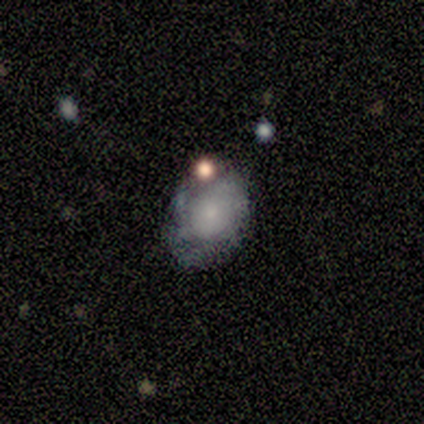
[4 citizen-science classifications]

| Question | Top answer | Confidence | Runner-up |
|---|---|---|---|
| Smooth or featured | smooth | 50% | tied: featured or disk (50%) |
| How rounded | round | 50% | tied: in between (50%) |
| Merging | none | 50% | minor disturbance (25%) |